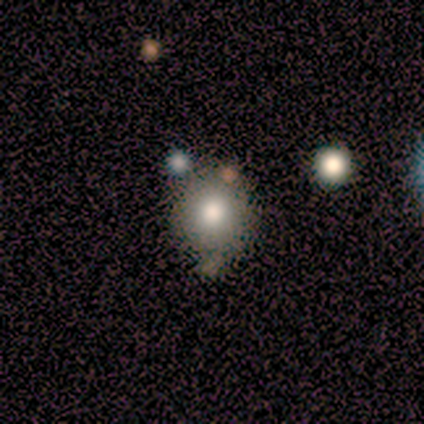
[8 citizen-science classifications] Overall: smooth (88%). How rounded: round (71%). Merging: minor disturbance (43%; none 29%).